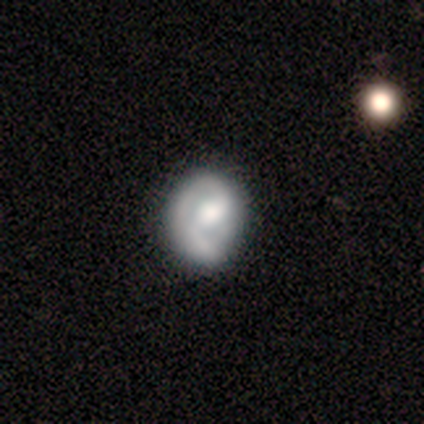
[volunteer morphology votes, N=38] featured or disk 74%, smooth 24%, star or artifact 3%. Down the decision tree: edge-on disk — no (100%); bar — no (46%); spiral arms — yes (86%); spiral arm count — 1 (42%); spiral winding — tight (50%); bulge size — moderate (54%); merging — none (38%).